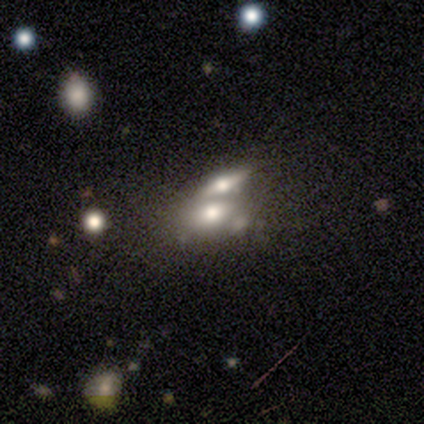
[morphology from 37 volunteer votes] smooth 54%, featured or disk 41%, star or artifact 5%. Down the decision tree: how rounded — in between (70%); merging — merger (60%).